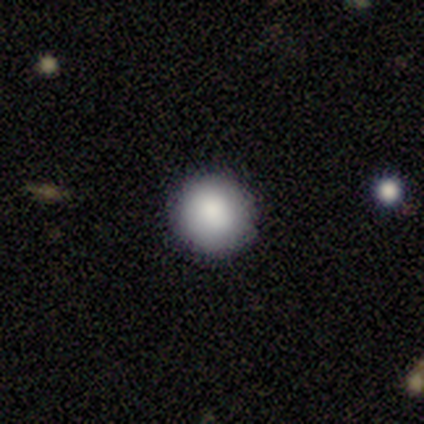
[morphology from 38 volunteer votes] A smooth galaxy with no disk features (87%) that is round (94%). Merging: none (97%).